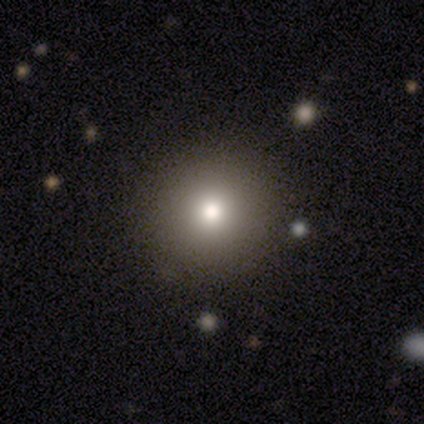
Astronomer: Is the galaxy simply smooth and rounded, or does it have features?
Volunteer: smooth — 100%.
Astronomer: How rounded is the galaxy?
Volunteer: round — 100%.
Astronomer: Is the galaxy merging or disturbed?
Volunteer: none — 75%.